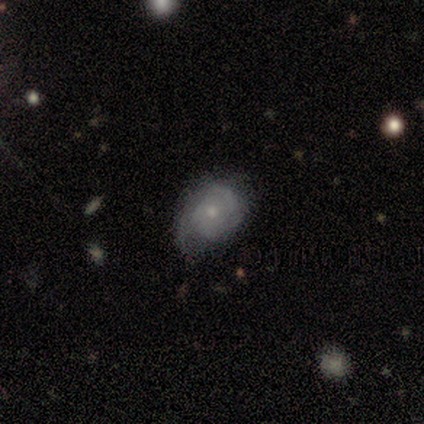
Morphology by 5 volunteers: A featured or disk galaxy (80%) with no bar (100%), tight (67%) spiral arms (75%) and a small central bulge (100%).

Vote fractions:
- Smooth or featured? featured or disk: 80% / smooth: 20% / star or artifact: 0%
- Edge-on disk? no: 100% / yes: 0%
- Bar? no: 100% / strong: 0% / weak: 0%
- Spiral arms? yes: 75% / no: 25%
- Spiral winding? tight: 67% / loose: 33% / medium: 0%
- Spiral arm count? can't tell: 67% / 3: 33% / 1: 0% / 2: 0% / 4: 0% / more than 4: 0%
- Bulge size? small: 100% / dominant: 0% / large: 0% / moderate: 0% / none: 0%
- Merging? minor disturbance: 60% / none: 20% / major disturbance: 20% / merger: 0%